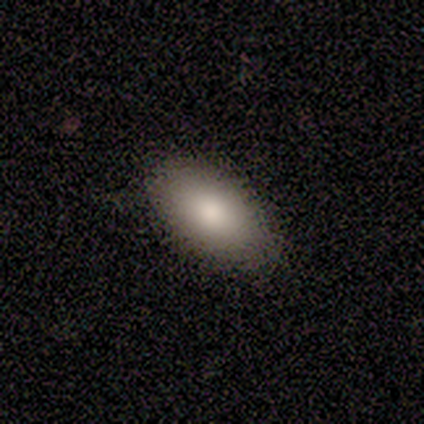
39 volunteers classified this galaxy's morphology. Smooth or featured? smooth (82%)
How rounded? in between (97%)
Merging? none (67%)